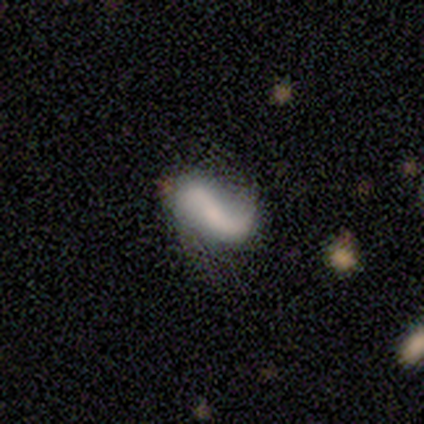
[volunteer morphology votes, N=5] Q: Smooth or featured?
A: smooth (60%); runner-up: featured or disk (40%)
Q: How rounded?
A: in between (100%)
Q: Merging?
A: minor disturbance (40%); tied with: merger (40%)